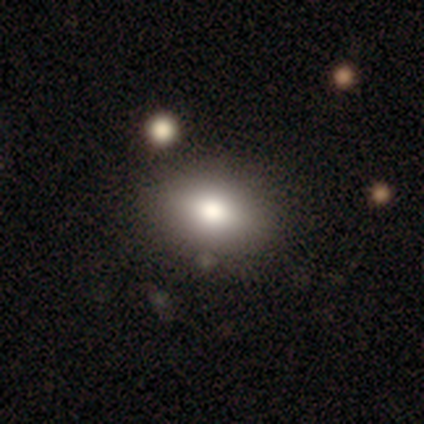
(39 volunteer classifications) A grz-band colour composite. It shows a smooth galaxy with no disk features (82%) that is in between round and cigar-shaped (72%). Merging: none (58%).